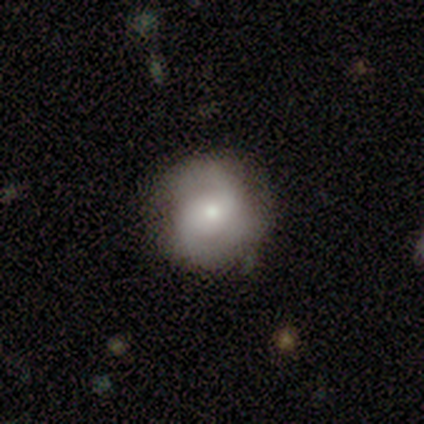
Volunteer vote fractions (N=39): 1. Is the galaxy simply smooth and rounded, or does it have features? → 56% featured or disk, 33% smooth, 10% star or artifact.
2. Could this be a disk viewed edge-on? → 100% no, 0% yes.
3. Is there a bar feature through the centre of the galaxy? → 73% no, 23% weak, 5% strong.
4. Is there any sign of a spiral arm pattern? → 77% yes, 23% no.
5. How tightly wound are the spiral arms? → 47% medium, 29% tight, 24% loose.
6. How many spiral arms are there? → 76% 2, 12% 3, 12% can't tell, 0% 1, 0% 4, 0% more than 4.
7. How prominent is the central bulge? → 55% small, 36% moderate, 9% large, 0% dominant, 0% none.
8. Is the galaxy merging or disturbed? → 80% none, 14% minor disturbance, 3% major disturbance, 3% merger.